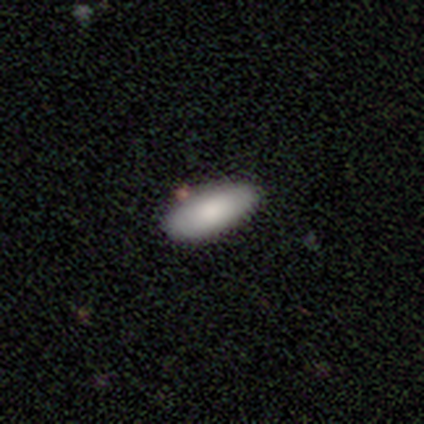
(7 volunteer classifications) smooth_or_featured: smooth (p=0.57) [alt: featured or disk p=0.29]
how_rounded: in between (p=1.00)
merging: none (p=1.00)